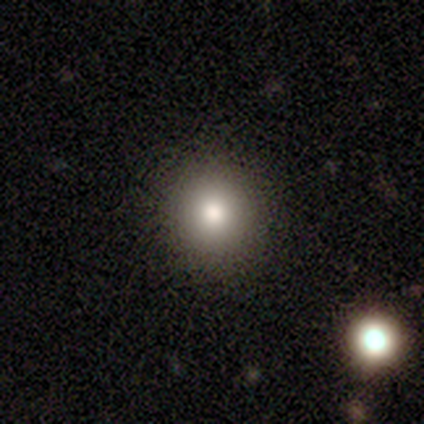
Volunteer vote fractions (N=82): Volunteers were most divided on "smooth or featured": smooth: 70%, featured or disk: 18%, star or artifact: 12%. More confident: merging — none (96%); how rounded — round (89%).